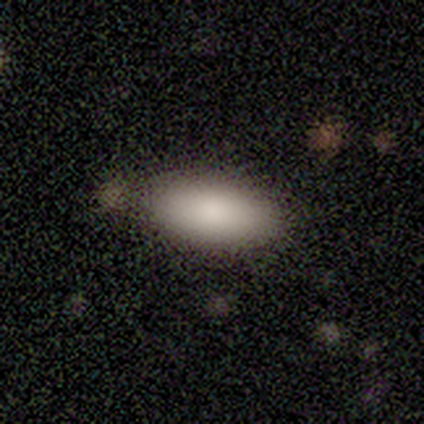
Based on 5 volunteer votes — smooth_or_featured: smooth (p=1.00)
how_rounded: in between (p=1.00)
merging: none (p=0.80) [alt: minor disturbance p=0.20]